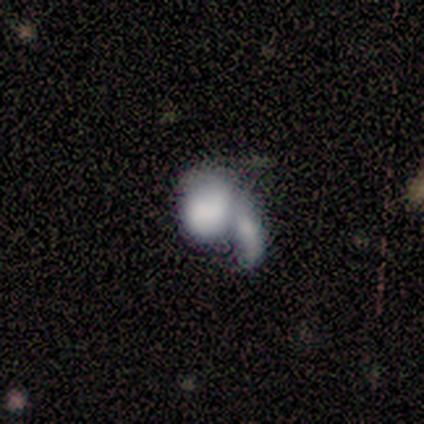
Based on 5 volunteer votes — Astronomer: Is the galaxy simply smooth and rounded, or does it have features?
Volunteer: featured or disk — 60% (runner-up: smooth, 40%).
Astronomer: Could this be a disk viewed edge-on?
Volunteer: no — 100%.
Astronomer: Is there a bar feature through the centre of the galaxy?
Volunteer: no — 100%.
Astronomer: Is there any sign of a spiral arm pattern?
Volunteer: no — 100%.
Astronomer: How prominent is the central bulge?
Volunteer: none — 67%.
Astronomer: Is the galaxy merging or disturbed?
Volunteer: merger — 60%.